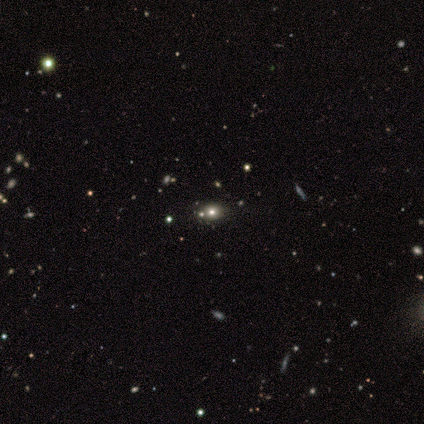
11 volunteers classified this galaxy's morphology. Smooth or featured? star or artifact (55%)